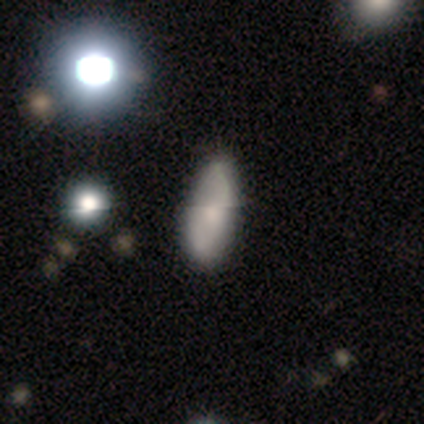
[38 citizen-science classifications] smooth-or-featured: smooth: 55% | featured or disk: 32% | star or artifact: 13%
  how-rounded: in between: 81% | round: 14% | cigar-shaped: 5%
  merging: none: 55% | minor disturbance: 18% | major disturbance: 3% | merger: 3%